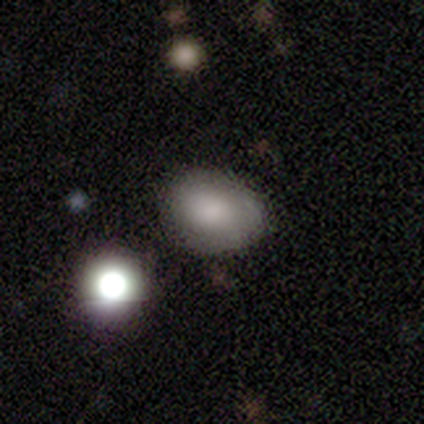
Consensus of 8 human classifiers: smooth_or_featured: smooth (p=0.75) [alt: star or artifact p=0.25]
how_rounded: in between (p=1.00)
merging: none (p=0.50) [alt: minor disturbance p=0.33]